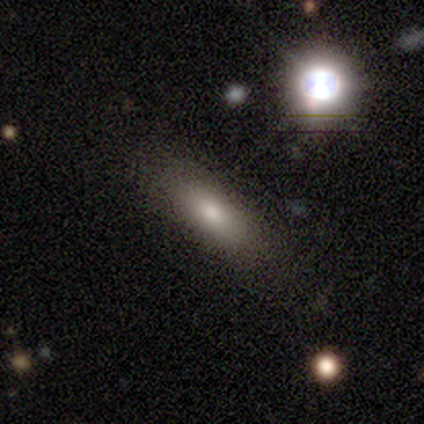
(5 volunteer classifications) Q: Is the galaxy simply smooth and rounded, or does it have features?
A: smooth — 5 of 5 (100%).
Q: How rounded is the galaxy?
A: in between — 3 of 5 (60%).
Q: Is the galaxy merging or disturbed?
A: none — 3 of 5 (60%).